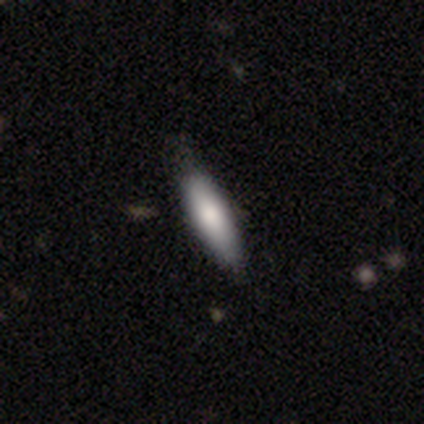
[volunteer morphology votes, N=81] Smooth or featured? smooth (79%)
How rounded? cigar-shaped (58%)
Merging? none (42%)